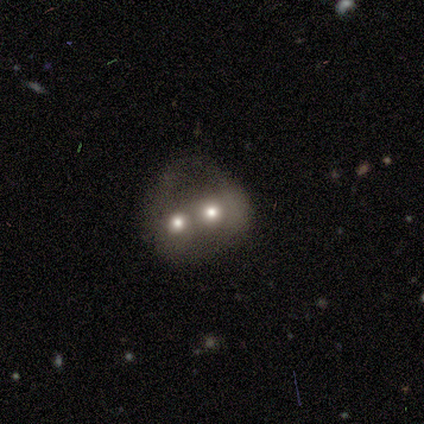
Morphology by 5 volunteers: Volunteers were most divided on "bulge size": small: 67%, moderate: 33%, dominant: 0%, large: 0%, none: 0%. More confident: edge-on disk — no (100%); bar — no (100%); spiral arms — no (100%); merging — merger (75%); smooth or featured — featured or disk (60%).